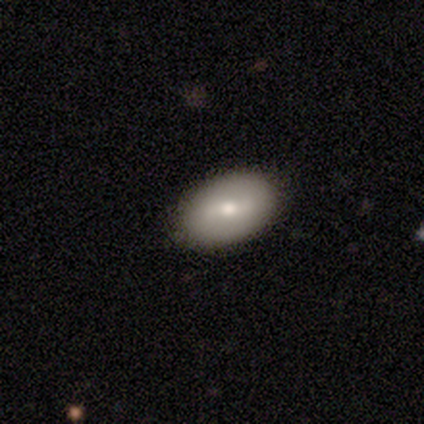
Smooth or featured?
  - smooth: 54% *
  - featured or disk: 46%
  - star or artifact: 0%
How rounded?
  - in between: 100% *
  - round: 0%
  - cigar-shaped: 0%
Merging?
  - none: 85% *
  - minor disturbance: 8%
  - major disturbance: 8%
  - merger: 0%